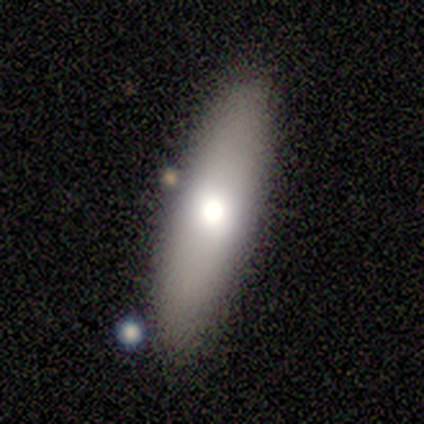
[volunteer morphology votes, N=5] Smooth or featured: smooth — 60% (featured or disk — 20%)
How rounded: cigar-shaped — 67% (in between — 33%)
Merging: none — 100%